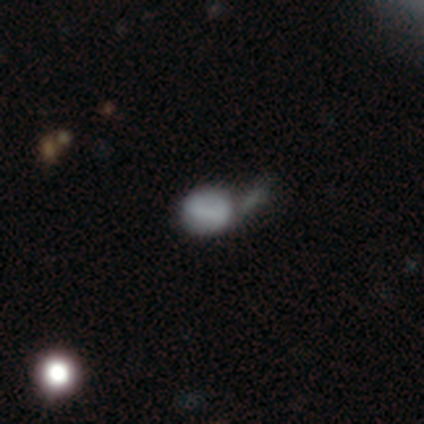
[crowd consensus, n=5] Overall: smooth (80%). How rounded: round (75%). Merging: none (40%, tied with merger).